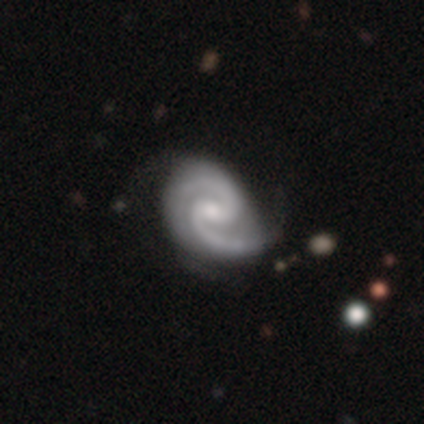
Smooth or featured?
  - featured or disk: 100% *
  - smooth: 0%
  - star or artifact: 0%
Edge-on disk?
  - no: 100% *
  - yes: 0%
Bar?
  - no: 75% *
  - weak: 25%
  - strong: 0%
Spiral arms?
  - yes: 100% *
  - no: 0%
Spiral winding?
  - medium: 75% *
  - tight: 25%
  - loose: 0%
Spiral arm count?
  - 2: 75% *
  - 3: 25%
  - 1: 0%
  - 4: 0%
  - more than 4: 0%
  - can't tell: 0%
Bulge size?
  - small: 50% *
  - moderate: 25%
  - none: 25%
  - dominant: 0%
  - large: 0%
Merging?
  - none: 50% * (tied)
  - minor disturbance: 50% * (tied)
  - major disturbance: 0%
  - merger: 0%